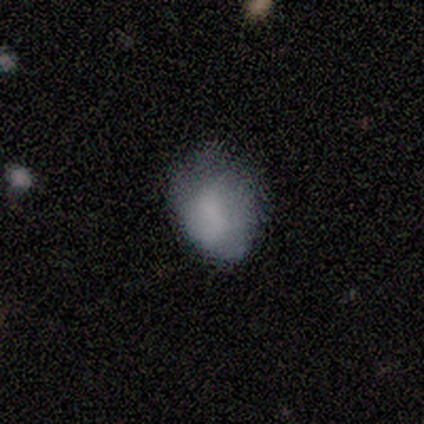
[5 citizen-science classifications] This is clearly a smooth galaxy (80%). How rounded: likely in between (75%). Merging: likely minor disturbance (75%).